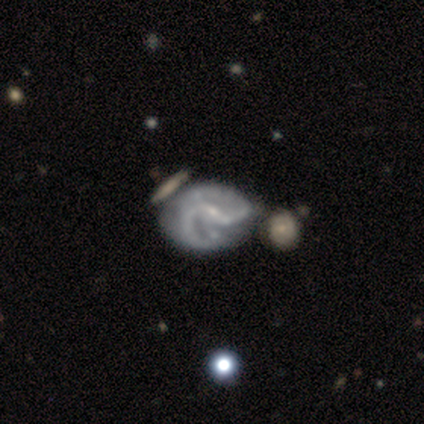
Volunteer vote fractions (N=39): This appears to be a featured or disk galaxy (87%) with a weak bar (42%), 2 (73%) medium (53%) spiral arms (91%) and a small central bulge (67%). Merging: merger (25%).